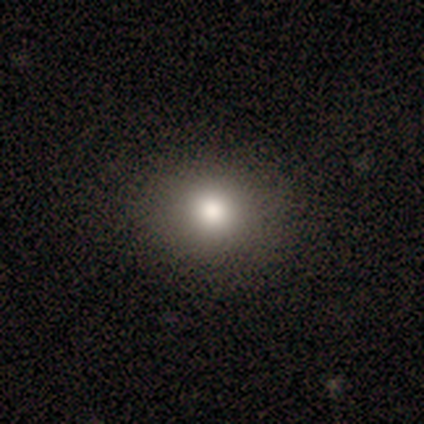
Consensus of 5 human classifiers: smooth_or_featured: smooth (p=1.00)
how_rounded: round (p=0.60) [alt: in between p=0.40]
merging: none (p=1.00)